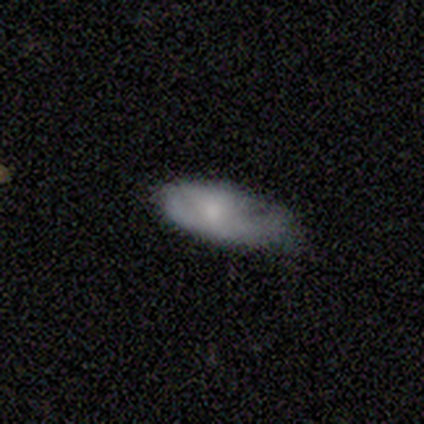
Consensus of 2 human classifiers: Q: Smooth or featured?
A: featured or disk (100%)
Q: Edge-on disk?
A: no (100%)
Q: Bar?
A: no (100%)
Q: Spiral arms?
A: yes (50%); tied with: no (50%)
Q: Spiral winding?
A: medium (100%)
Q: Spiral arm count?
A: can't tell (100%)
Q: Bulge size?
A: small (100%)
Q: Merging?
A: minor disturbance (100%)